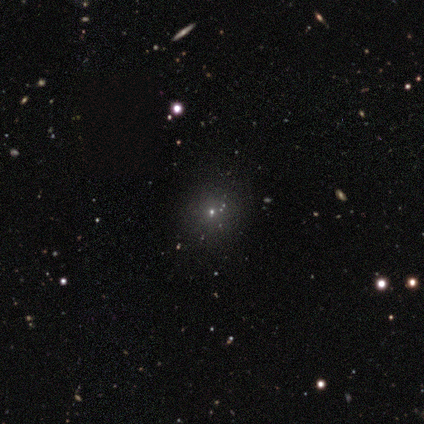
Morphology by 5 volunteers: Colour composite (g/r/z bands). It shows a star or artifact, not a galaxy (60%).